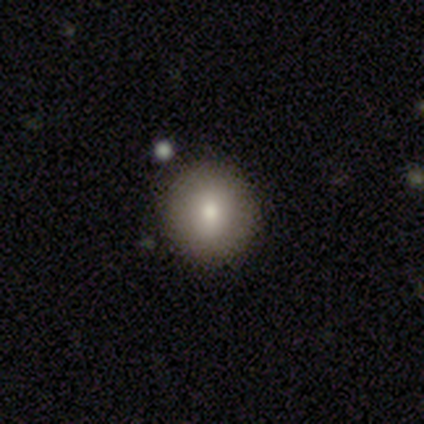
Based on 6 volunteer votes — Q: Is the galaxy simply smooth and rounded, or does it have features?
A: smooth — 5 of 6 (83%).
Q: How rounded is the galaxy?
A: round — 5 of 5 (100%).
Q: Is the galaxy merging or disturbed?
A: none — 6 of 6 (100%).